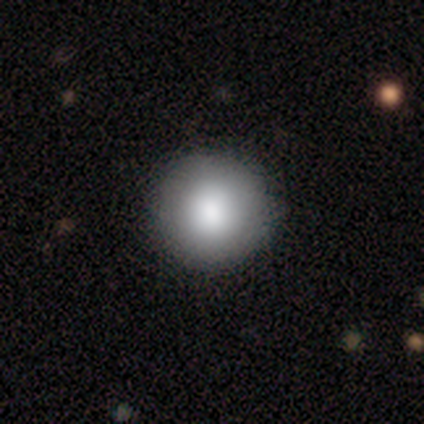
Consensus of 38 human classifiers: Q: Smooth or featured?
A: smooth (92%); runner-up: featured or disk (5%)
Q: How rounded?
A: round (100%)
Q: Merging?
A: none (49%); runner-up: minor disturbance (3%)